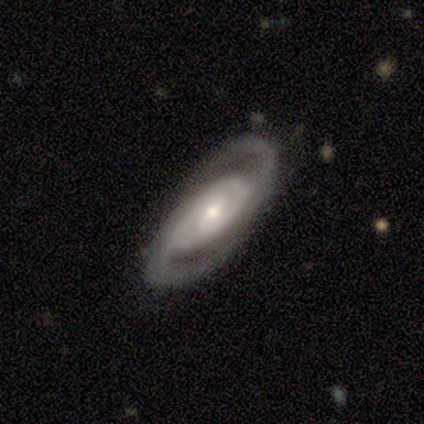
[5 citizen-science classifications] smooth_or_featured: featured or disk (p=1.00)
disk_edge_on: no (p=1.00)
bar: weak (p=0.80) [alt: no p=0.20]
has_spiral_arms: yes (p=1.00)
spiral_winding: tight (p=0.80) [alt: loose p=0.20]
spiral_arm_count: 2 (p=1.00)
bulge_size: small (p=0.60) [alt: moderate p=0.40]
merging: none (p=1.00)